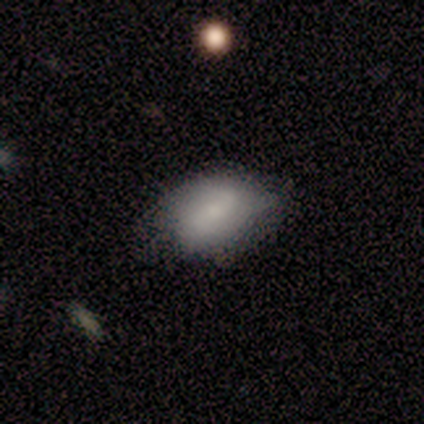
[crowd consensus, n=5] This appears to be a smooth galaxy with no disk features (60%) that is in between round and cigar-shaped (100%). Merging: none (80%).